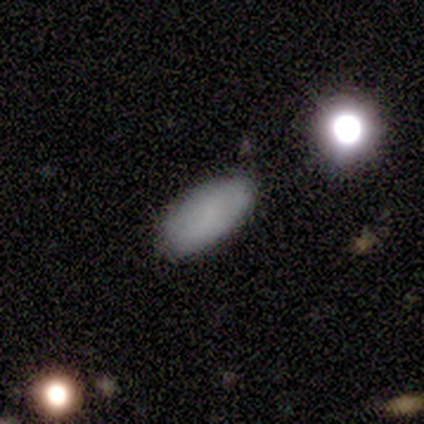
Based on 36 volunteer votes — Q: Smooth or featured?
A: smooth (78%); runner-up: featured or disk (11%)
Q: How rounded?
A: in between (89%); runner-up: cigar-shaped (7%)
Q: Merging?
A: none (81%); runner-up: minor disturbance (16%)